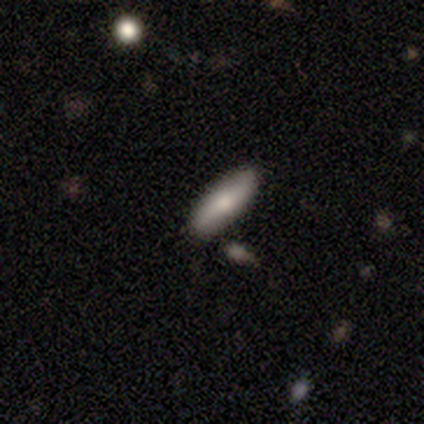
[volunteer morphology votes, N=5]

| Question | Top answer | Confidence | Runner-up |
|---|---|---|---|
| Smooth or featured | smooth | 100% | — |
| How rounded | cigar-shaped | 100% | — |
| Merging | none | 80% | major disturbance (20%) |